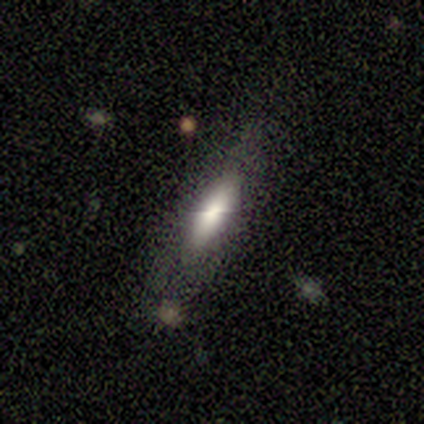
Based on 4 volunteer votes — This is possibly a smooth galaxy (50%). How rounded: clearly cigar-shaped (100%). Merging: likely none (67%).